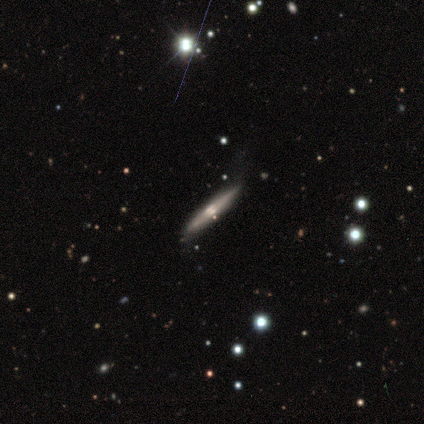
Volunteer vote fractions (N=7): A featured or disk galaxy (71%) viewed edge-on (100%) with a rounded central bulge (60%).

Vote fractions:
- Smooth or featured? featured or disk: 71% / smooth: 29% / star or artifact: 0%
- Edge-on disk? yes: 100% / no: 0%
- Edge-on bulge? rounded: 60% / boxy: 20% / none: 20%
- Merging? none: 71% / minor disturbance: 29% / major disturbance: 0% / merger: 0%